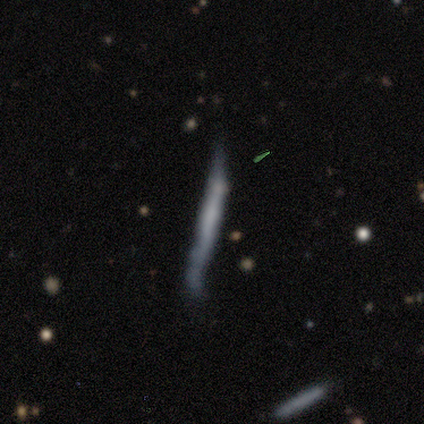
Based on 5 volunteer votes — Smooth or featured: smooth — 40% (tied with featured or disk — 40%)
How rounded: in between — 50% (tied with cigar-shaped — 50%)
Merging: none — 75% (minor disturbance — 25%)